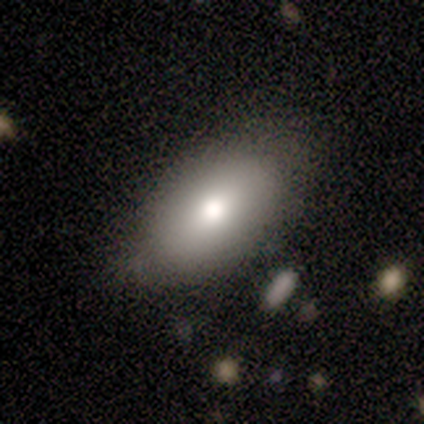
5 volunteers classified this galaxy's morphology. smooth_or_featured: featured or disk (p=0.60) [alt: smooth p=0.40]
disk_edge_on: yes (p=0.67) [alt: no p=0.33]
edge_on_bulge: rounded (p=1.00)
merging: minor disturbance (p=0.60) [alt: none p=0.40]